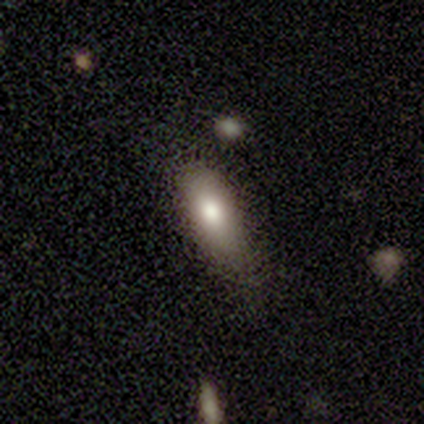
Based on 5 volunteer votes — smooth_or_featured: smooth (p=1.00)
how_rounded: in between (p=1.00)
merging: minor disturbance (p=0.60) [alt: none p=0.40]